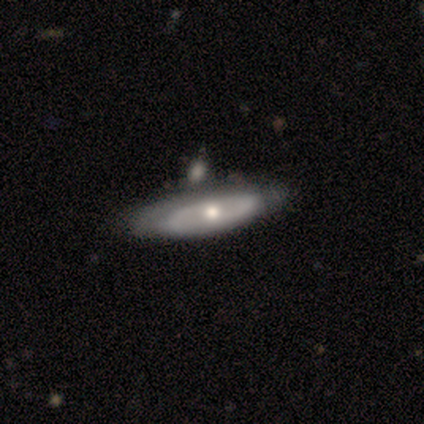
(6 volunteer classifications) This appears to be a featured or disk galaxy (67%) with no bar (100%), 2 (100%) tight (50%, tied with medium) spiral arms (67%) and a moderate central bulge (100%). Merging: none (40%, tied with minor disturbance).